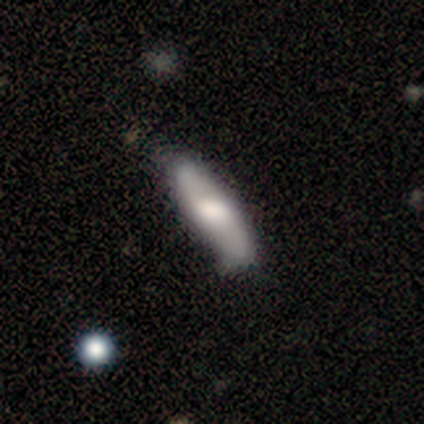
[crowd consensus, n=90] This appears to be a smooth galaxy with no disk features (61%) that is cigar-shaped (75%). Merging: none (70%).